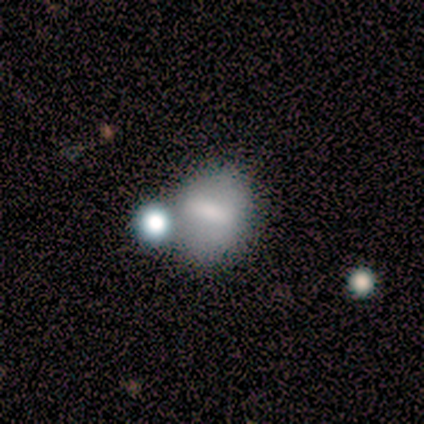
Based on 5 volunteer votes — Morphology: type=smooth (60%); roundness=round (100%); merging=none (75%).